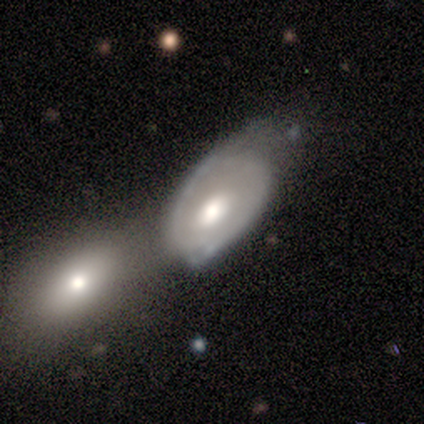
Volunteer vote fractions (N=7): smooth_or_featured: smooth (p=0.43) [tied with: featured or disk p=0.43]
how_rounded: in between (p=0.67) [alt: round p=0.33]
merging: minor disturbance (p=0.67) [alt: major disturbance p=0.17]